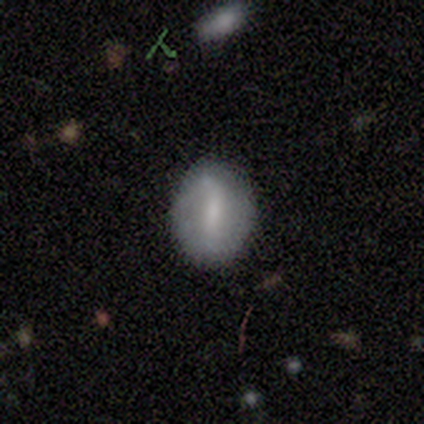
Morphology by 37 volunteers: smooth_or_featured: smooth (p=0.46) [tied with: featured or disk p=0.46]
how_rounded: in between (p=0.82) [alt: round p=0.12]
merging: none (p=0.82) [alt: minor disturbance p=0.12]